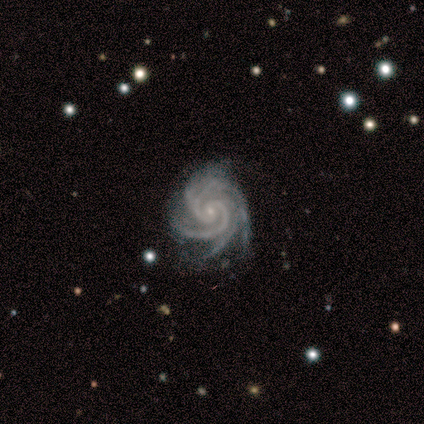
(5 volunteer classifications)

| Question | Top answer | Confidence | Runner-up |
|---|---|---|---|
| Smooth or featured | featured or disk | 100% | — |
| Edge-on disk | no | 100% | — |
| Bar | no | 100% | — |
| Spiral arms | yes | 100% | — |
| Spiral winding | tight | 80% | medium (20%) |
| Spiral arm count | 4 | 40% | tied: more than 4 (40%) |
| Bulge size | small | 80% | none (20%) |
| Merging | none | 60% | minor disturbance (40%) |